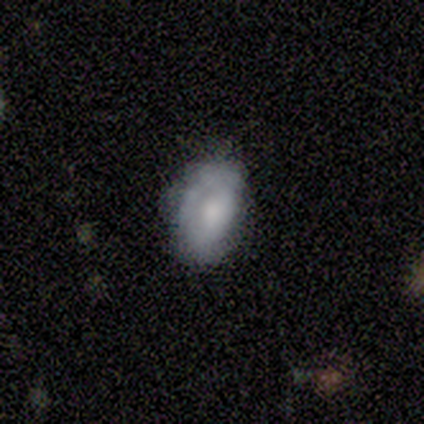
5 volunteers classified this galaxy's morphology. Overall: smooth (60%; featured or disk 40%). How rounded: in between (100%). Merging: none (40%, tied with major disturbance).